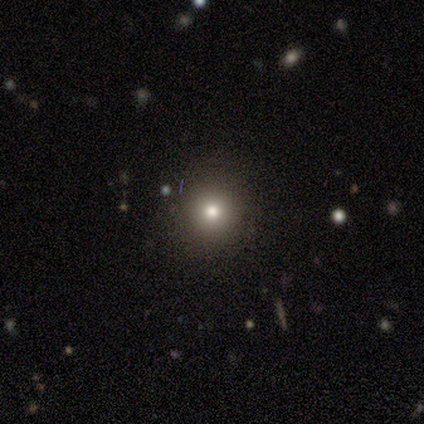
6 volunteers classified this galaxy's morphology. A star or artifact, not a galaxy (50%).